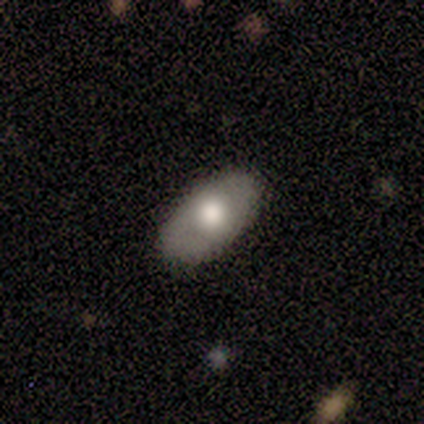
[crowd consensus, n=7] Q: Smooth or featured?
A: smooth (71%); runner-up: featured or disk (29%)
Q: How rounded?
A: in between (100%)
Q: Merging?
A: none (71%); runner-up: minor disturbance (29%)